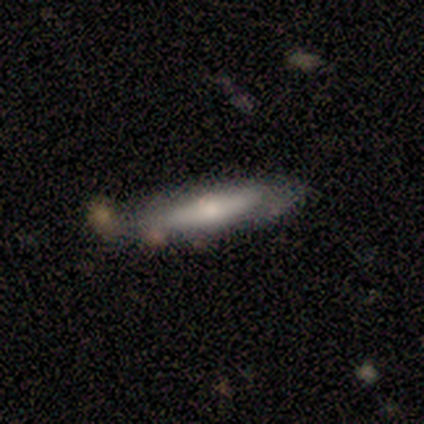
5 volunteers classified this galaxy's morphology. smooth_or_featured: smooth (p=0.60) [alt: featured or disk p=0.40]
how_rounded: cigar-shaped (p=0.67) [alt: in between p=0.33]
merging: none (p=0.40) [tied with: minor disturbance p=0.40]